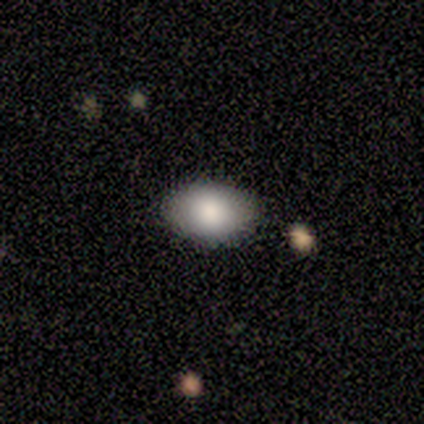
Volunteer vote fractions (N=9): A smooth galaxy with no disk features (78%) that is in between round and cigar-shaped (86%).

Vote fractions:
- Smooth or featured? smooth: 78% / featured or disk: 11% / star or artifact: 11%
- How rounded? in between: 86% / round: 14% / cigar-shaped: 0%
- Merging? none: 88% / merger: 12% / minor disturbance: 0% / major disturbance: 0%